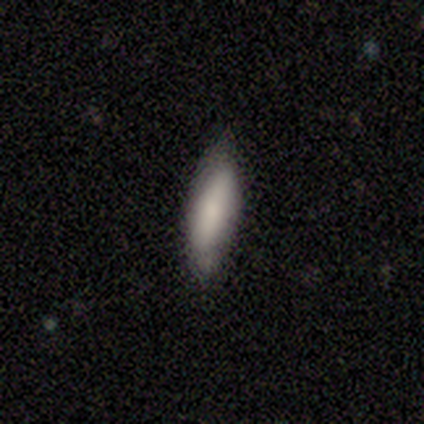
Morphology: type=smooth (100%); roundness=cigar-shaped (60%); merging=none (100%).